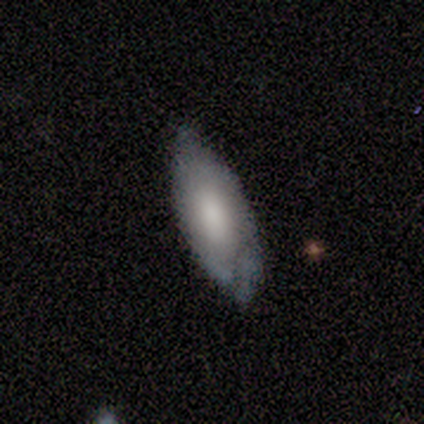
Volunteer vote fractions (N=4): Smooth or featured?
  - smooth: 75% *
  - featured or disk: 25%
  - star or artifact: 0%
How rounded?
  - in between: 100% *
  - round: 0%
  - cigar-shaped: 0%
Merging?
  - none: 75% *
  - minor disturbance: 25%
  - major disturbance: 0%
  - merger: 0%